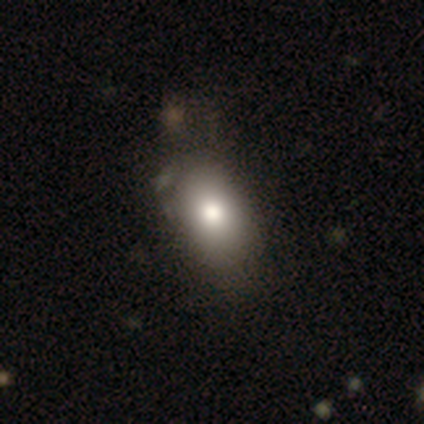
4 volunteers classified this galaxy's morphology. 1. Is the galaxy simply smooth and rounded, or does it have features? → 75% smooth, 25% star or artifact, 0% featured or disk.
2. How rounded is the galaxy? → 100% in between, 0% round, 0% cigar-shaped.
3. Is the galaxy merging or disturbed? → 67% none, 33% minor disturbance, 0% major disturbance, 0% merger.